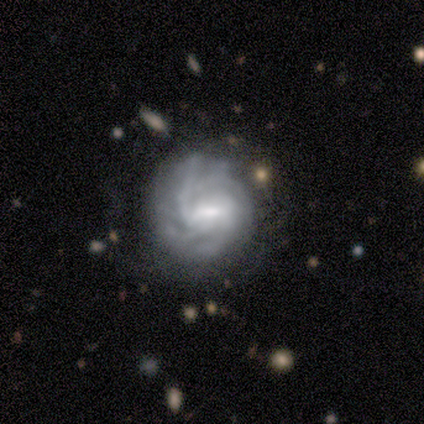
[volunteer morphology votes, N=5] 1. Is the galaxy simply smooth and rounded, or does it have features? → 100% featured or disk, 0% smooth, 0% star or artifact.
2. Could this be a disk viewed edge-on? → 100% no, 0% yes.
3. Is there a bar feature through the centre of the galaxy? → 60% weak, 20% strong, 20% no.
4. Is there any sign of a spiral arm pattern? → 100% yes, 0% no.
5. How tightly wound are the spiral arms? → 60% tight, 40% medium, 0% loose.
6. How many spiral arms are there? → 60% can't tell, 40% 4, 0% 1, 0% 2, 0% 3, 0% more than 4.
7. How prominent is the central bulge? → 40% moderate (tied), 40% small (tied), 20% large, 0% dominant, 0% none.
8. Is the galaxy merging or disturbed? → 60% none, 20% minor disturbance, 20% major disturbance, 0% merger.